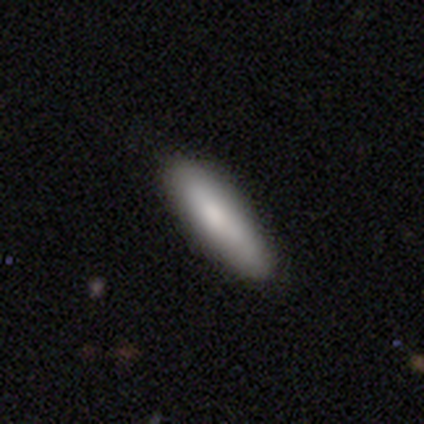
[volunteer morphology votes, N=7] type=smooth (100%); roundness=cigar-shaped (71%); merging=none (71%).